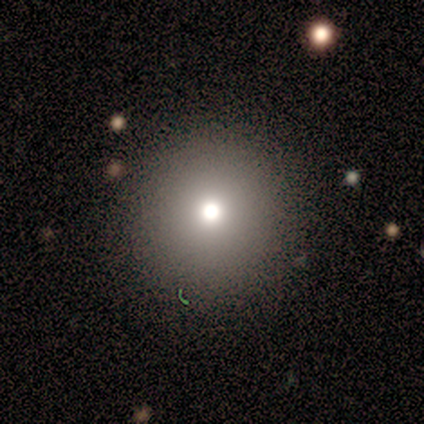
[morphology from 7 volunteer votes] Smooth or featured: smooth — 86% (star or artifact — 14%)
How rounded: round — 100%
Merging: none — 100%